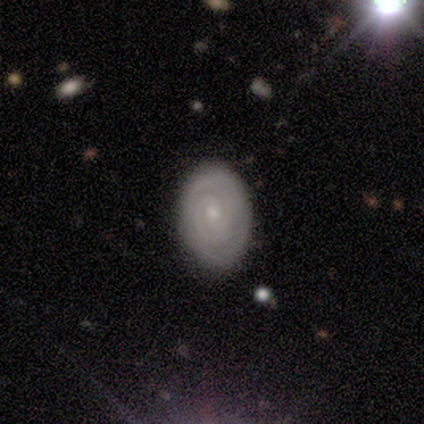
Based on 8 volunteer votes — Smooth or featured: featured or disk — 100%
Edge-on disk: no — 88% (yes — 12%)
Bar: no — 86% (strong — 14%)
Spiral arms: yes — 100%
Spiral winding: tight — 100%
Spiral arm count: can't tell — 57% (2 — 29%)
Bulge size: small — 57% (moderate — 29%)
Merging: none — 88% (major disturbance — 12%)